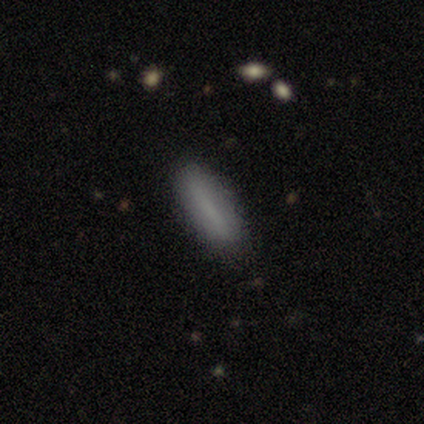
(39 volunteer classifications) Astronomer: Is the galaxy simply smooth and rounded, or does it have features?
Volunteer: smooth — 74%.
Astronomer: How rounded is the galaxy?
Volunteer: cigar-shaped — 62% (runner-up: in between, 38%).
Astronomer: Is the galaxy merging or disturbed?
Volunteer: none — 86%.